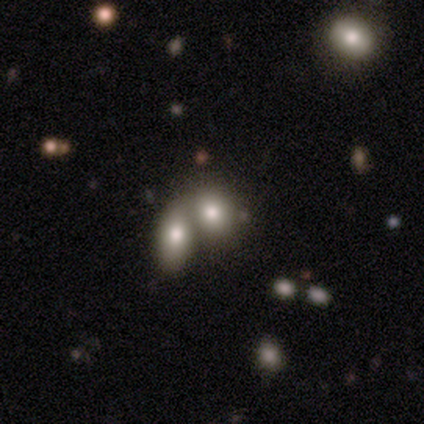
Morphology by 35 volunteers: type=smooth (77%); roundness=in between (74%); merging=merger (75%).